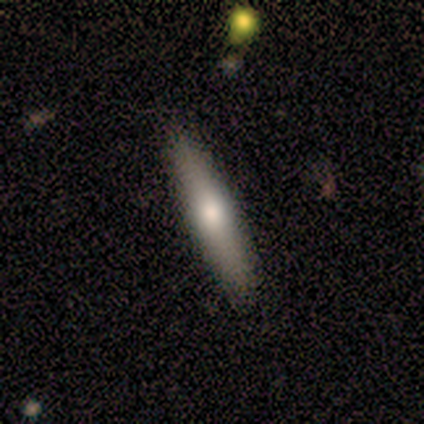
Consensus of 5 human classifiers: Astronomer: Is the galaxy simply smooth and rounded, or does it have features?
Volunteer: featured or disk — 60% (runner-up: smooth, 40%).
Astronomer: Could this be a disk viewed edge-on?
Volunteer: yes — 100%.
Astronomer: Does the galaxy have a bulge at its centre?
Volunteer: rounded — 100%.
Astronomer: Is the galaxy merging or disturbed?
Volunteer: none — 100%.